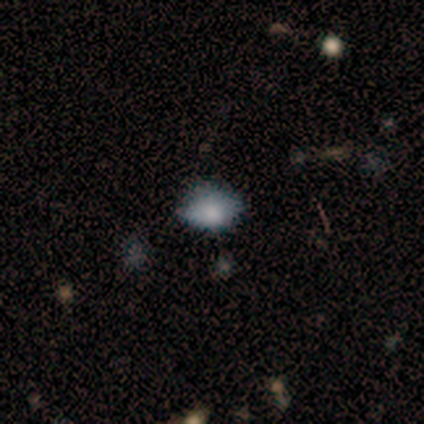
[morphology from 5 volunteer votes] Smooth or featured: smooth — 80% (star or artifact — 20%)
How rounded: in between — 100%
Merging: none — 75% (minor disturbance — 25%)